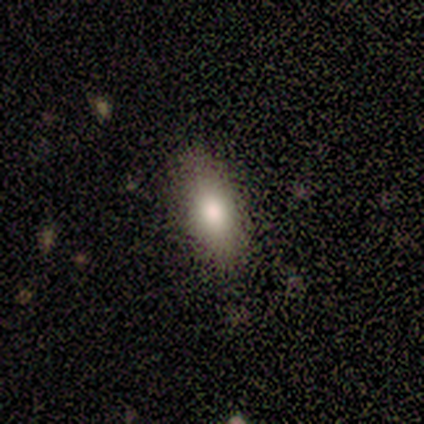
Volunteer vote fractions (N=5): Smooth or featured: smooth — 100%
How rounded: in between — 100%
Merging: none — 80% (minor disturbance — 20%)